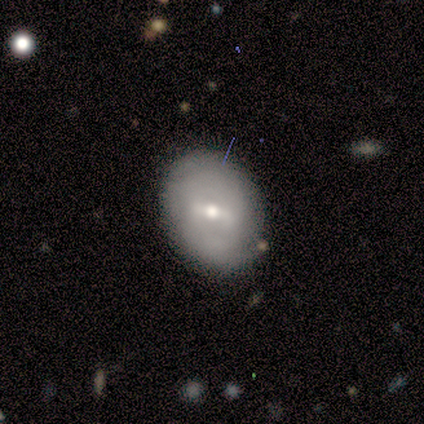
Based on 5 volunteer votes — Morphology: type=smooth (60%); roundness=in between (100%); merging=none (60%).